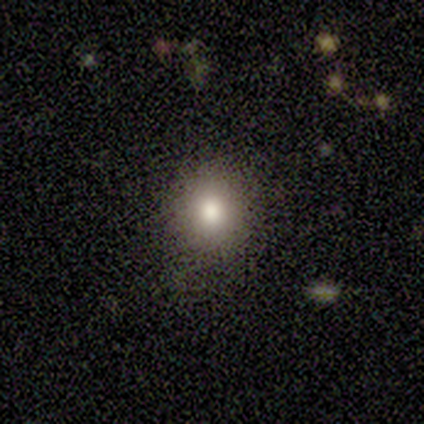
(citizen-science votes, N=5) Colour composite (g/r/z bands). It shows a smooth galaxy with no disk features (40%, tied with star or artifact) that is round (100%). Merging: none (100%).